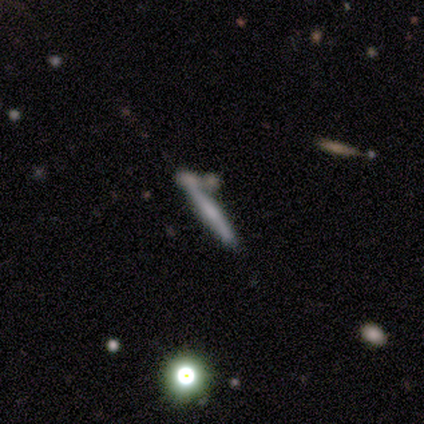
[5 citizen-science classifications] smooth-or-featured: smooth: 60% | featured or disk: 40% | star or artifact: 0%
  how-rounded: cigar-shaped: 100% | round: 0% | in between: 0%
  merging: none: 40% (tied) | minor disturbance: 40% (tied) | merger: 20% | major disturbance: 0%